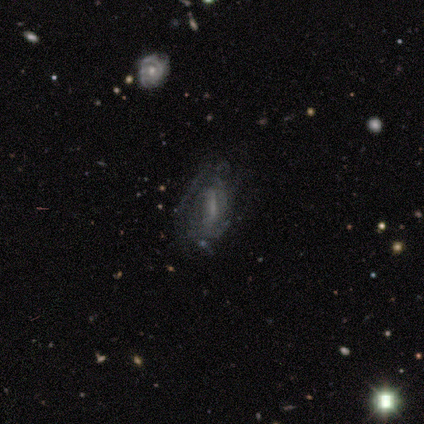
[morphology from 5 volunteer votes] A featured or disk galaxy (60%) with no bar (100%), 3 (100%) medium (100%) spiral arms (50%, tied with no) and a small central bulge (100%). Merging: none (50%).